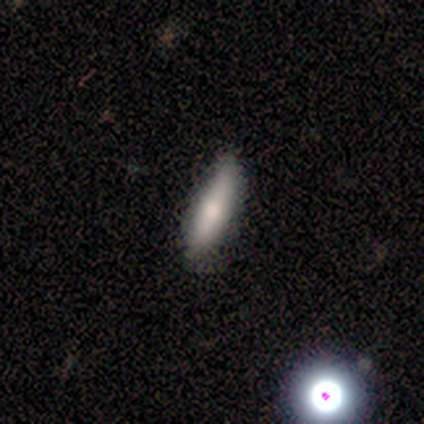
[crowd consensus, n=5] smooth_or_featured: smooth (p=0.60) [alt: featured or disk p=0.20]
how_rounded: cigar-shaped (p=0.67) [alt: in between p=0.33]
merging: none (p=1.00)